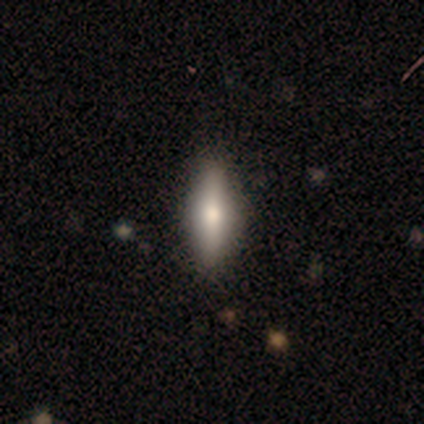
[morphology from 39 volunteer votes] smooth_or_featured: smooth (p=0.59) [alt: featured or disk p=0.36]
how_rounded: cigar-shaped (p=0.74) [alt: in between p=0.26]
merging: none (p=0.70) [alt: minor disturbance p=0.03]